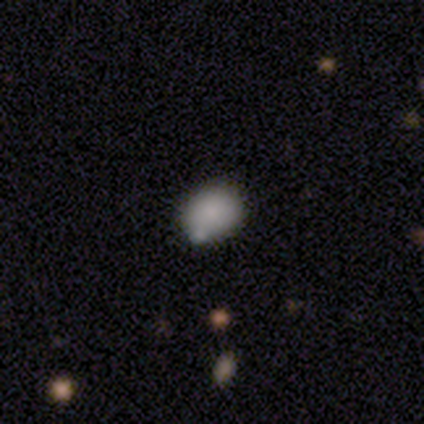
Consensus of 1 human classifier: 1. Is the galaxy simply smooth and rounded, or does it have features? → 100% smooth, 0% featured or disk, 0% star or artifact.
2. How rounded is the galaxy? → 100% round, 0% in between, 0% cigar-shaped.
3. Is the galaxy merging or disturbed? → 100% none, 0% minor disturbance, 0% major disturbance, 0% merger.